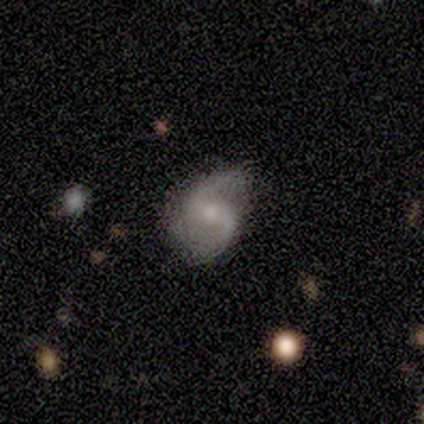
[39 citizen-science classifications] featured or disk 79%, smooth 15%, star or artifact 5%. Down the decision tree: edge-on disk — no (100%); bar — no (39%); spiral arms — yes (100%); spiral arm count — 2 (100%); spiral winding — loose (68%); bulge size — moderate (48%); merging — none (57%).